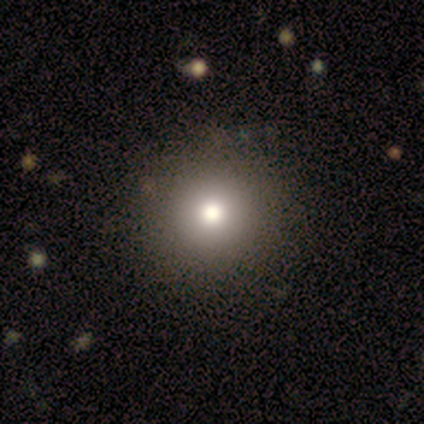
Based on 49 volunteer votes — Morphology: type=smooth (80%); roundness=round (92%); merging=none (95%).